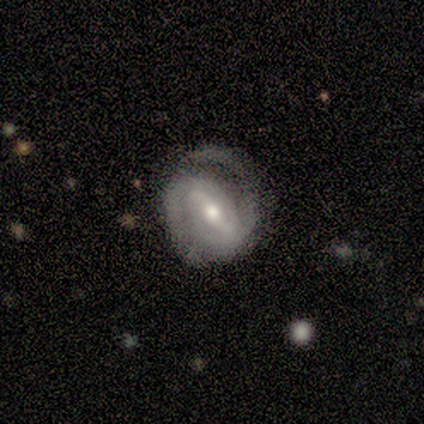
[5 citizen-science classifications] smooth_or_featured: featured or disk (p=1.00)
disk_edge_on: no (p=1.00)
bar: strong (p=0.80) [alt: weak p=0.20]
has_spiral_arms: yes (p=1.00)
spiral_winding: tight (p=0.40) [tied with: medium p=0.40]
spiral_arm_count: 2 (p=1.00)
bulge_size: moderate (p=0.60) [alt: small p=0.20]
merging: none (p=0.80) [alt: minor disturbance p=0.20]